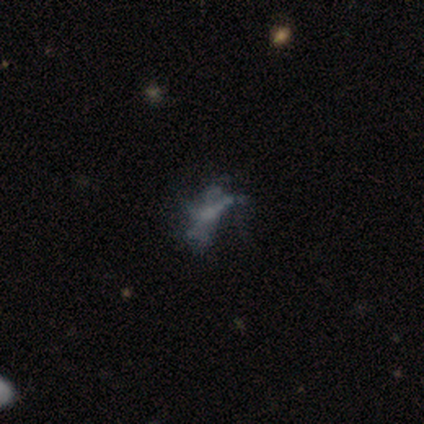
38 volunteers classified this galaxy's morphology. Q: Smooth or featured?
A: featured or disk (66%); runner-up: star or artifact (26%)
Q: Edge-on disk?
A: no (100%)
Q: Bar?
A: no (80%); runner-up: strong (16%)
Q: Spiral arms?
A: no (80%); runner-up: yes (20%)
Q: Bulge size?
A: none (76%); runner-up: small (20%)
Q: Merging?
A: none (61%); runner-up: major disturbance (32%)